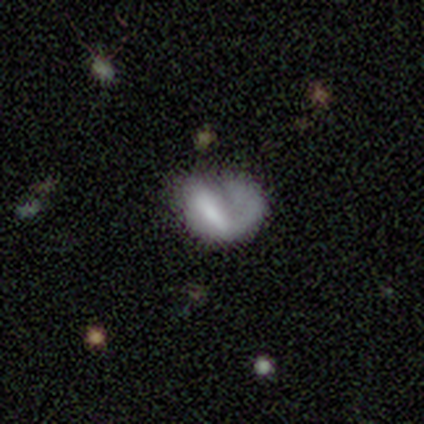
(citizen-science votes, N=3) Smooth or featured?
  - featured or disk: 67% *
  - smooth: 33%
  - star or artifact: 0%
Edge-on disk?
  - no: 100% *
  - yes: 0%
Bar?
  - strong: 50% * (tied)
  - no: 50% * (tied)
  - weak: 0%
Spiral arms?
  - no: 100% *
  - yes: 0%
Bulge size?
  - small: 50% * (tied)
  - none: 50% * (tied)
  - dominant: 0%
  - large: 0%
  - moderate: 0%
Merging?
  - major disturbance: 100% *
  - none: 0%
  - minor disturbance: 0%
  - merger: 0%